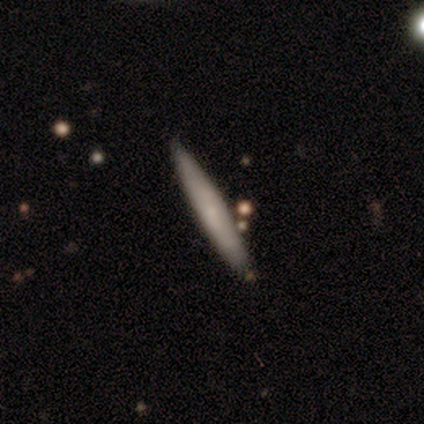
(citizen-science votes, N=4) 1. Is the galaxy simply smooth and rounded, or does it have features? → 50% smooth (tied), 50% star or artifact (tied), 0% featured or disk.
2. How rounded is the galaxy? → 100% cigar-shaped, 0% round, 0% in between.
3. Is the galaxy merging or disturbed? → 100% none, 0% minor disturbance, 0% major disturbance, 0% merger.